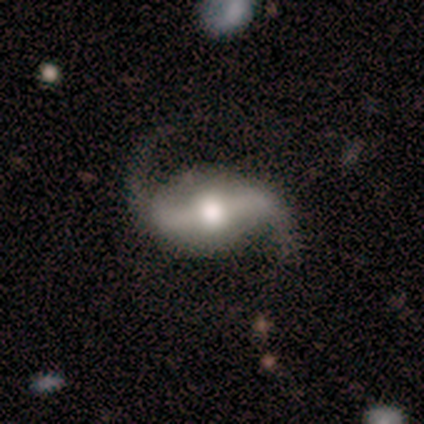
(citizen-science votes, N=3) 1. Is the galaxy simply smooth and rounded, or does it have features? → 100% featured or disk, 0% smooth, 0% star or artifact.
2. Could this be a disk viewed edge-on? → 100% no, 0% yes.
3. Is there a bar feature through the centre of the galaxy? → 67% no, 33% weak, 0% strong.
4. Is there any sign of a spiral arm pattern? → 100% yes, 0% no.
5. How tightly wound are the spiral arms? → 67% loose, 33% medium, 0% tight.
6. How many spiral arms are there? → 67% 2, 33% can't tell, 0% 1, 0% 3, 0% 4, 0% more than 4.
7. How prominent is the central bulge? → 67% moderate, 33% large, 0% dominant, 0% small, 0% none.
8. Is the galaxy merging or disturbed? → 100% none, 0% minor disturbance, 0% major disturbance, 0% merger.